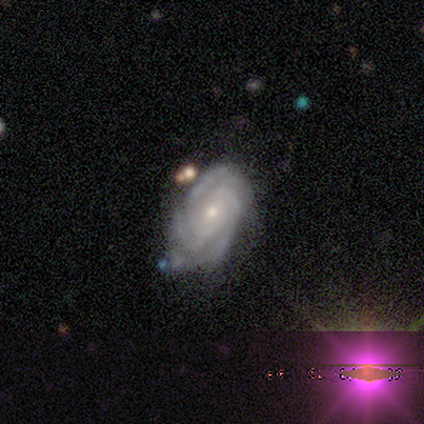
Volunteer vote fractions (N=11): This appears to be a featured or disk galaxy (100%) with a weak bar (64%), 3 (64%) tight (73%) spiral arms (100%) and a small central bulge (73%). Merging: none (55%).